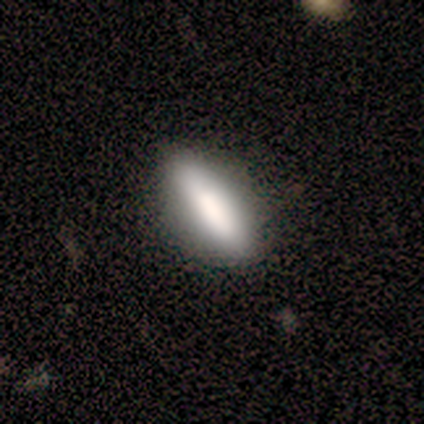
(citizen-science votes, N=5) This appears to be a smooth galaxy with no disk features (80%) that is in between round and cigar-shaped (50%, tied with cigar-shaped). Merging: none (100%).